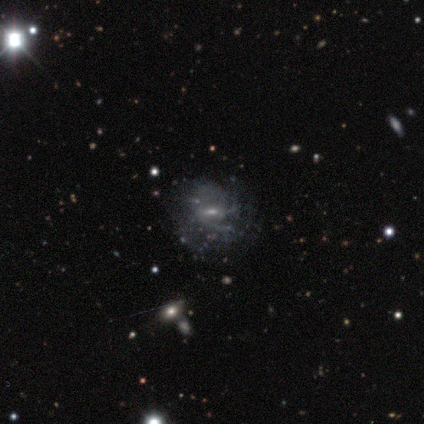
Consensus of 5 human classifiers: Q: Smooth or featured?
A: featured or disk (80%); runner-up: smooth (20%)
Q: Edge-on disk?
A: no (75%); runner-up: yes (25%)
Q: Bar?
A: strong (33%); tied with: weak (33%); no (33%)
Q: Spiral arms?
A: no (67%); runner-up: yes (33%)
Q: Bulge size?
A: small (67%); runner-up: moderate (33%)
Q: Merging?
A: major disturbance (60%); runner-up: none (40%)